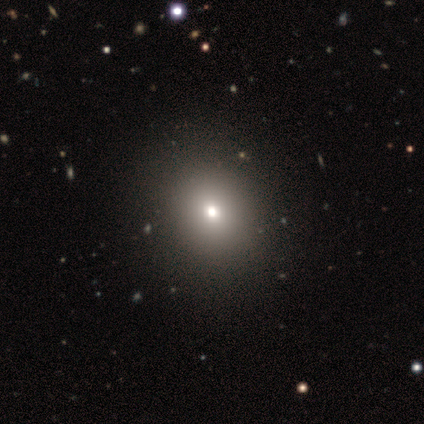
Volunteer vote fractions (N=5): Smooth or featured?
  - smooth: 100% *
  - featured or disk: 0%
  - star or artifact: 0%
How rounded?
  - round: 60% *
  - in between: 40%
  - cigar-shaped: 0%
Merging?
  - none: 80% *
  - minor disturbance: 20%
  - major disturbance: 0%
  - merger: 0%